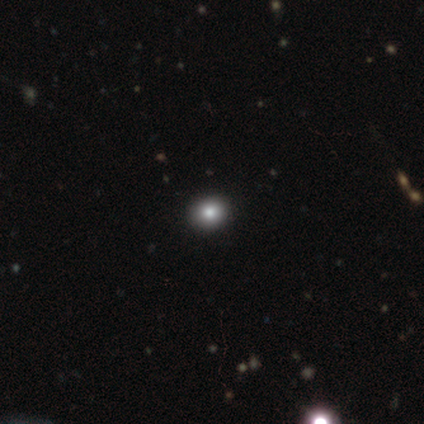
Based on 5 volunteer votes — Morphology: type=smooth (60%); roundness=round (67%); merging=none (75%).